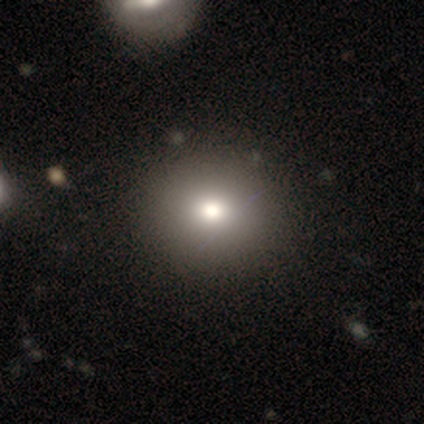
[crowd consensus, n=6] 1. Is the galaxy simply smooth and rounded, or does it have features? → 100% smooth, 0% featured or disk, 0% star or artifact.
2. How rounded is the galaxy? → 100% round, 0% in between, 0% cigar-shaped.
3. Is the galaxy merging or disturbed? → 100% none, 0% minor disturbance, 0% major disturbance, 0% merger.